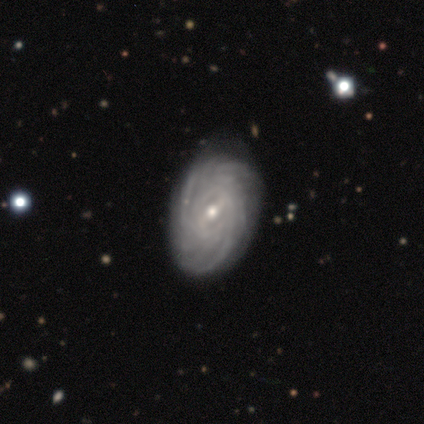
Volunteers were most divided on "bar" (2-way tie): weak: 50%, no: 50%, strong: 0%; "bulge size" (2-way tie): moderate: 50%, small: 50%, dominant: 0%, large: 0%, none: 0%. More confident: smooth or featured — featured or disk (100%); edge-on disk — no (100%); spiral arms — yes (100%); spiral winding — tight (100%); spiral arm count — can't tell (75%); merging — none (75%).